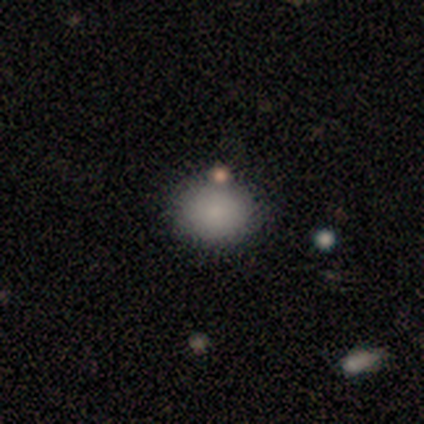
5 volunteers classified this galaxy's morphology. smooth_or_featured: smooth (p=0.80) [alt: star or artifact p=0.20]
how_rounded: round (p=1.00)
merging: none (p=1.00)